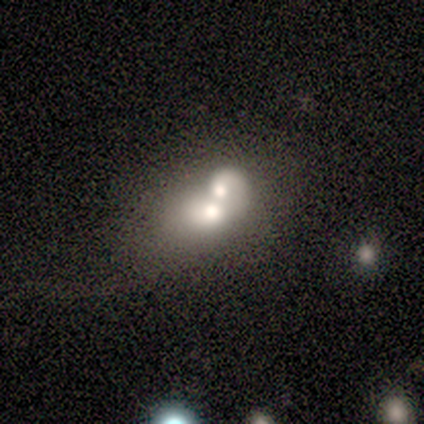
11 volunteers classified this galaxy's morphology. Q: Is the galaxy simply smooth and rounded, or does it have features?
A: featured or disk — 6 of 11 (55%).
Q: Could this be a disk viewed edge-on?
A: no — 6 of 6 (100%).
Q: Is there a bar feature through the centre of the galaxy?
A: no — 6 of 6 (100%).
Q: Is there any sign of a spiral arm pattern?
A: no — 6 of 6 (100%).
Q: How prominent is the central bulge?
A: moderate — 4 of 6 (67%).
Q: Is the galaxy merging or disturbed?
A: merger — 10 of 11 (91%).